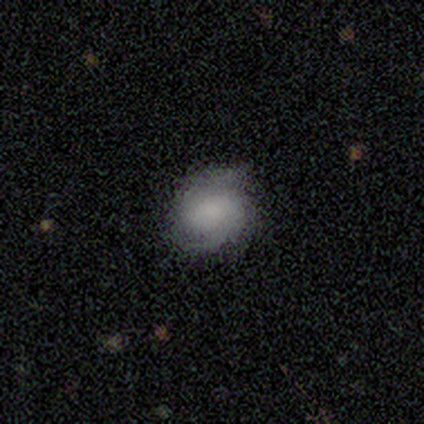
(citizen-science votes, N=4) Smooth or featured? 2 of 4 (50%, tied with featured or disk) said smooth. How rounded? 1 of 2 (50%, tied with in between) said round. Merging? 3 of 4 (75%) said none.